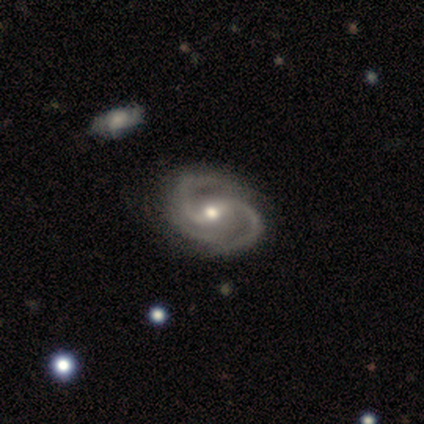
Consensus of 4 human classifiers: featured or disk 100%, smooth 0%, star or artifact 0%. Down the decision tree: edge-on disk — no (100%); bar — weak (50%); spiral arms — yes (100%); spiral arm count — 2 (75%); spiral winding — medium (75%); bulge size — moderate (100%); merging — none (50%, tied with minor disturbance).